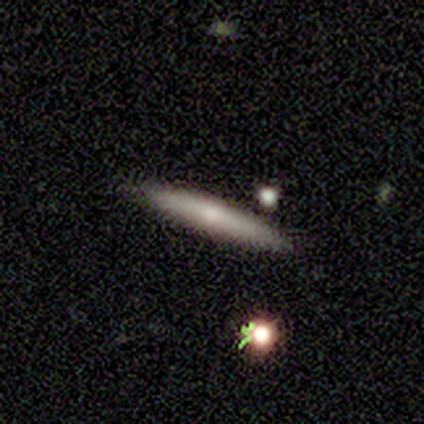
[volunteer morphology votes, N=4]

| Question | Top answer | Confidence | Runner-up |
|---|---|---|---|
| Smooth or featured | featured or disk | 75% | smooth (25%) |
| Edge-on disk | yes | 100% | — |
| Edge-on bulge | rounded | 67% | none (33%) |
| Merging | none | 100% | — |